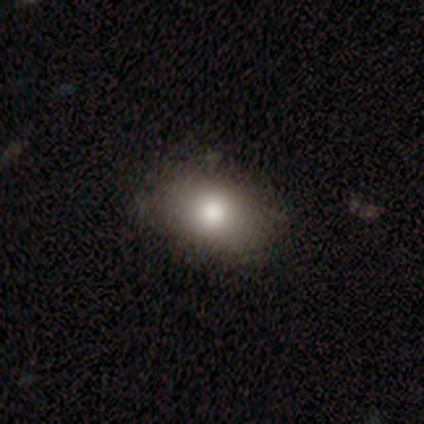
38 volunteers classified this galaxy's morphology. smooth-or-featured: smooth: 76% | featured or disk: 13% | star or artifact: 11%
  how-rounded: in between: 83% | round: 17% | cigar-shaped: 0%
  merging: none: 59% | minor disturbance: 12% | merger: 9% | major disturbance: 6%